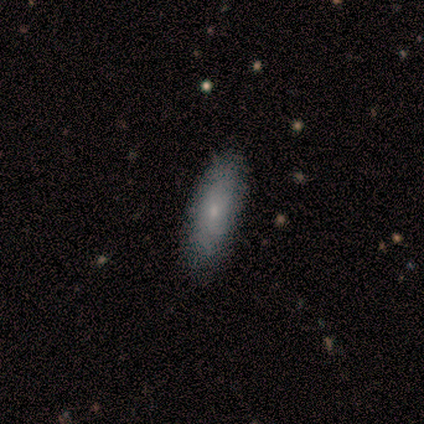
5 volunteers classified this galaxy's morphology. smooth_or_featured: smooth (p=0.80) [alt: featured or disk p=0.20]
how_rounded: in between (p=1.00)
merging: none (p=1.00)